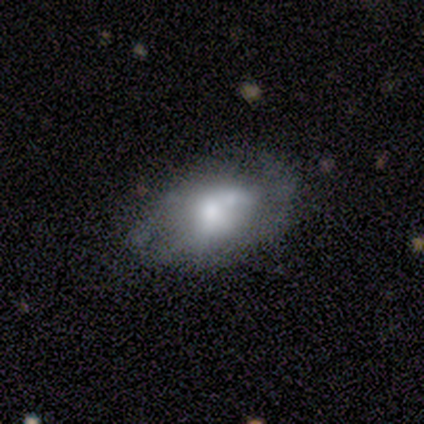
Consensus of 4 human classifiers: A featured or disk galaxy (75%) with a weak bar (50%, tied with no), 1 (50%, tied with 2) medium (100%) spiral arms (100%) and a large central bulge (100%). Merging: none (50%, tied with minor disturbance).